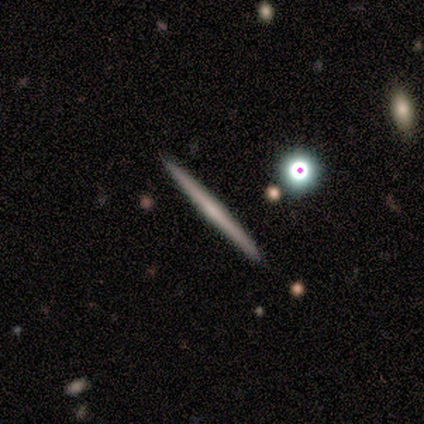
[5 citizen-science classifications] Overall: featured or disk (80%). Edge-on disk: yes (75%). Edge-on bulge: none (67%; rounded 33%). Merging: none (100%).